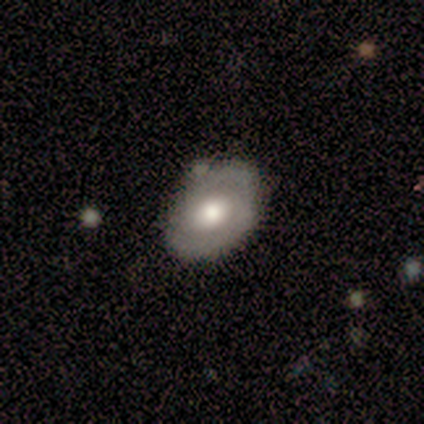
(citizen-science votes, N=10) Smooth or featured?
  - smooth: 50% *
  - featured or disk: 40%
  - star or artifact: 10%
How rounded?
  - in between: 100% *
  - round: 0%
  - cigar-shaped: 0%
Merging?
  - none: 78% *
  - minor disturbance: 22%
  - major disturbance: 0%
  - merger: 0%